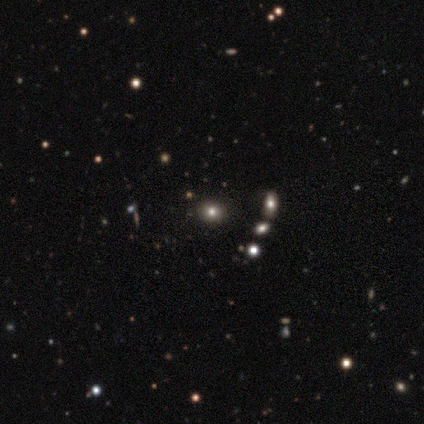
Overall: smooth (55%; star or artifact 29%). How rounded: round (57%; in between 43%). Merging: none (93%).